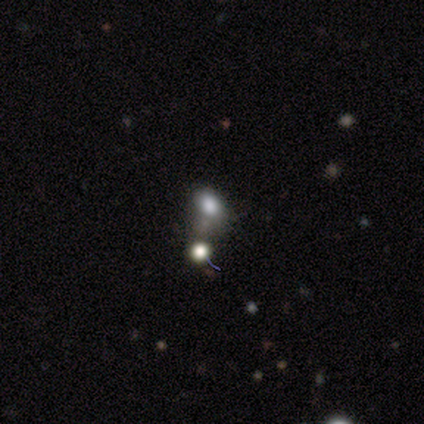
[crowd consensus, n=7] smooth 71%, featured or disk 14%, star or artifact 14%. Down the decision tree: how rounded — in between (80%); merging — minor disturbance (67%).